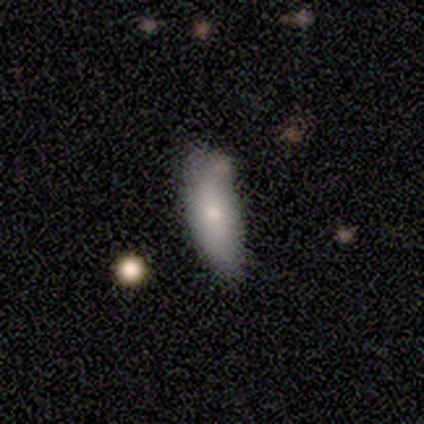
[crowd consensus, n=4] Overall: smooth (100%). How rounded: in between (100%). Merging: none (75%).